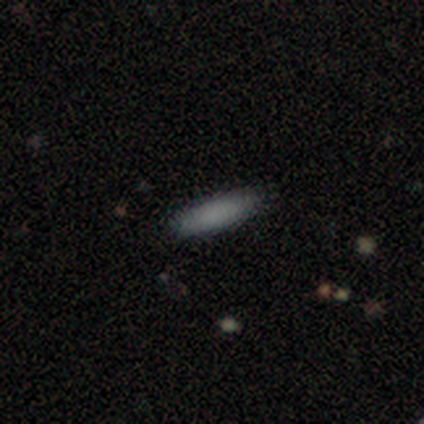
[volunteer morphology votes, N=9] Overall: smooth (89%). How rounded: cigar-shaped (62%; in between 38%). Merging: none (100%).